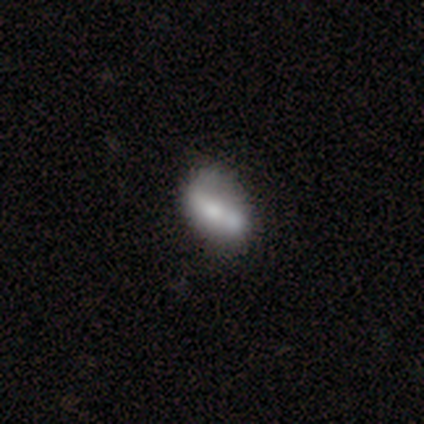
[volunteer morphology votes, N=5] Smooth or featured? 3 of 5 (60%) said smooth. How rounded? 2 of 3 (67%) said in between. Merging? 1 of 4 (25%, tied with minor disturbance, major disturbance and merger) said none.